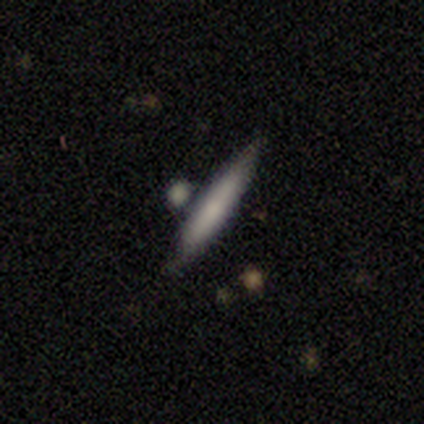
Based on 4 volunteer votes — Smooth or featured? 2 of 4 (50%) said smooth. How rounded? 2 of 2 (100%) said cigar-shaped. Merging? 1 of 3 (33%, tied with minor disturbance and merger) said none.